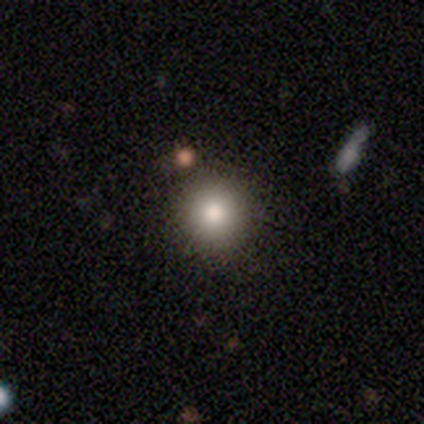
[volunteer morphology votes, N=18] Smooth or featured? smooth (100%)
How rounded? round (94%)
Merging? none (94%)